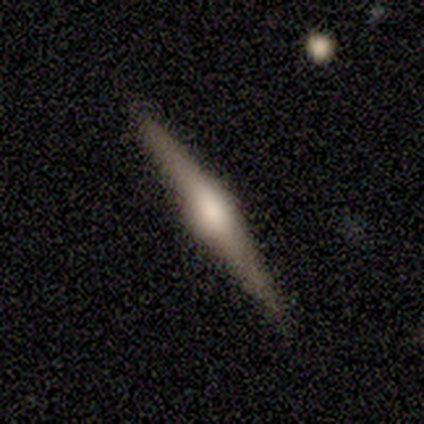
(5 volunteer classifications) Morphology: type=featured or disk (100%); edge-on=yes (100%); edge-on bulge=rounded (100%); merging=none (100%).